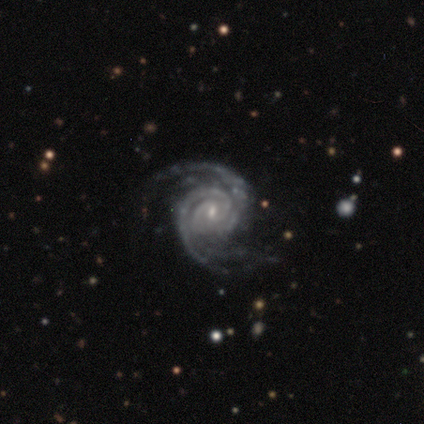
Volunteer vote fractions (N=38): Smooth or featured? 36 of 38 (95%) said featured or disk. Edge-on disk? 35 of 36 (97%) said no. Bar? 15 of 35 (43%) said weak. Spiral arms? 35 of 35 (100%) said yes. Spiral winding? 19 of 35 (54%) said tight. Spiral arm count? 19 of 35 (54%) said 2. Bulge size? 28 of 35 (80%) said small. Merging? 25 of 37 (68%) said none.